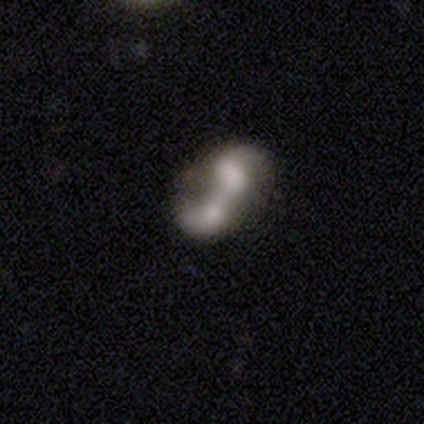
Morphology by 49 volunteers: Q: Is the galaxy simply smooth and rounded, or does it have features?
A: featured or disk — 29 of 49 (59%).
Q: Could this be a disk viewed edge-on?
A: no — 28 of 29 (97%).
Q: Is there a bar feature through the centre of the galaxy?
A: no — 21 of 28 (75%).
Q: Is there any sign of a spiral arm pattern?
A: yes — 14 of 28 (50%, tied with no).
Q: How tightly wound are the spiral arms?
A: loose — 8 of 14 (57%).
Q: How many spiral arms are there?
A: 2 — 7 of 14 (50%).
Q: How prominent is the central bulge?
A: none — 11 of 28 (39%).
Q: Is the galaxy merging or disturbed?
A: merger — 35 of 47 (74%).